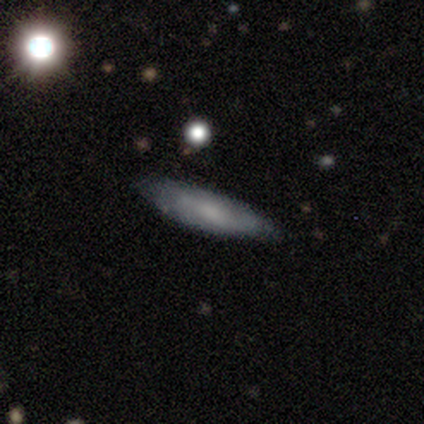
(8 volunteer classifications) A smooth galaxy with no disk features (75%) that is in between round and cigar-shaped (67%). Merging: none (75%).